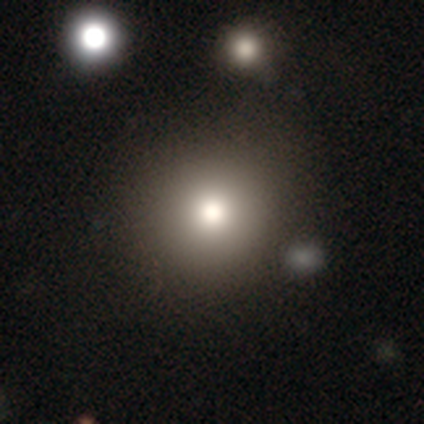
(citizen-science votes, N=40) Smooth or featured? smooth (80%)
How rounded? round (97%)
Merging? none (80%)